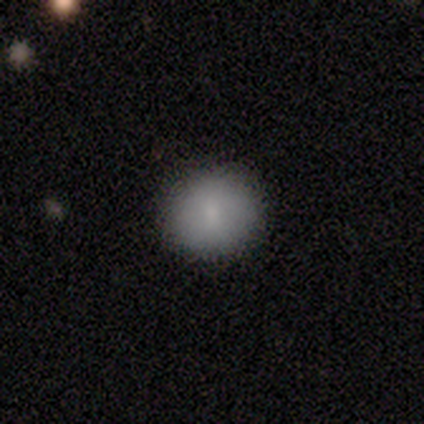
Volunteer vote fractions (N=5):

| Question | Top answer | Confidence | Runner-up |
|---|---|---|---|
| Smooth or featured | smooth | 80% | star or artifact (20%) |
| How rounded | round | 100% | — |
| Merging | none | 100% | — |